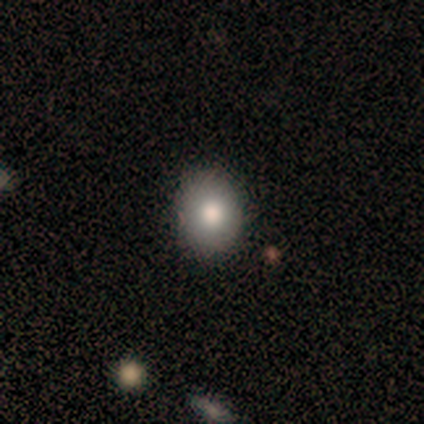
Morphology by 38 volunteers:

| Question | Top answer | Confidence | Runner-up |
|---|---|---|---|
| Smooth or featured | smooth | 92% | featured or disk (5%) |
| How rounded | round | 51% | in between (49%) |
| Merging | none | 92% | major disturbance (5%) |